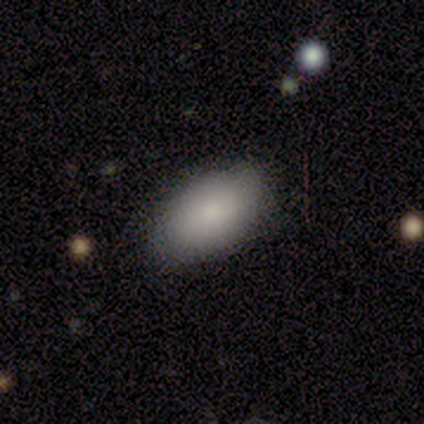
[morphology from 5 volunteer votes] Smooth or featured?
  - smooth: 40% * (tied)
  - featured or disk: 40% * (tied)
  - star or artifact: 20%
How rounded?
  - in between: 100% *
  - round: 0%
  - cigar-shaped: 0%
Merging?
  - none: 75% *
  - merger: 25%
  - minor disturbance: 0%
  - major disturbance: 0%